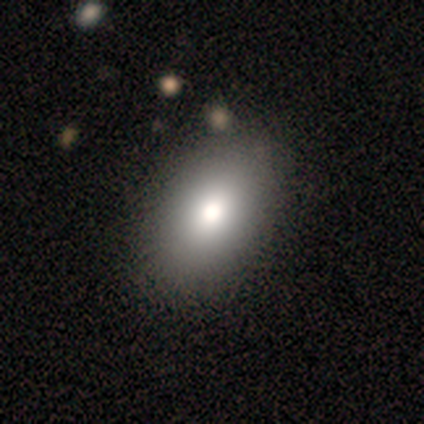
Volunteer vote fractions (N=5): smooth-or-featured: smooth: 80% | star or artifact: 20% | featured or disk: 0%
  how-rounded: in between: 75% | round: 25% | cigar-shaped: 0%
  merging: none: 100% | minor disturbance: 0% | major disturbance: 0% | merger: 0%